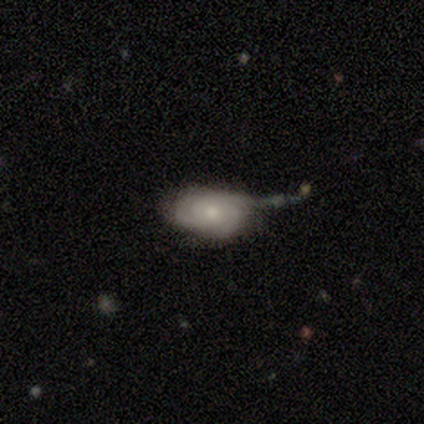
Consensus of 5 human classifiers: Smooth or featured? featured or disk (60%)
Edge-on disk? no (100%)
Bar? no (100%)
Spiral arms? yes (67%)
Spiral winding? tight (100%)
Spiral arm count? 3 (50%, tied with can't tell)
Bulge size? moderate (67%)
Merging? none (40%, tied with major disturbance)